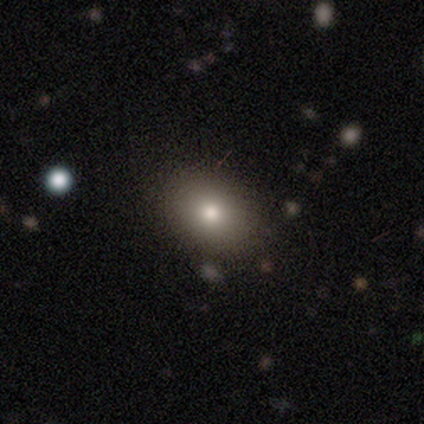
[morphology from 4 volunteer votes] Smooth or featured? smooth (100%)
How rounded? in between (75%)
Merging? none (100%)